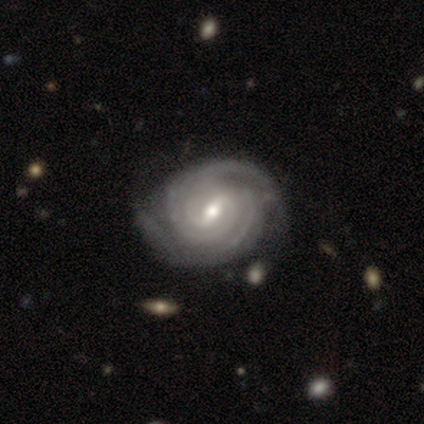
Smooth or featured?
  - featured or disk: 100% *
  - smooth: 0%
  - star or artifact: 0%
Edge-on disk?
  - no: 100% *
  - yes: 0%
Bar?
  - weak: 80% *
  - strong: 20%
  - no: 0%
Spiral arms?
  - yes: 100% *
  - no: 0%
Spiral winding?
  - tight: 80% *
  - medium: 20%
  - loose: 0%
Spiral arm count?
  - 2: 60% *
  - 4: 20%
  - more than 4: 20%
  - 1: 0%
  - 3: 0%
  - can't tell: 0%
Bulge size?
  - small: 60% *
  - moderate: 40%
  - dominant: 0%
  - large: 0%
  - none: 0%
Merging?
  - none: 100% *
  - minor disturbance: 0%
  - major disturbance: 0%
  - merger: 0%